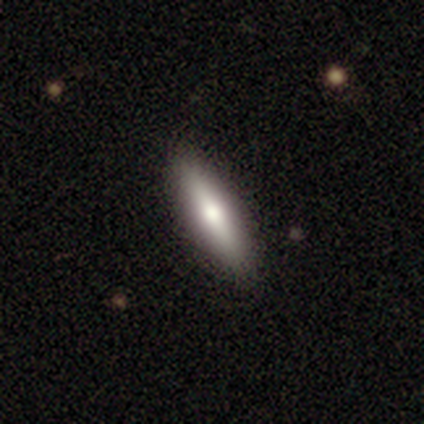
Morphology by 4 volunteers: smooth 50% (tied), featured or disk 50% (tied), star or artifact 0%. Down the decision tree: how rounded — in between (100%); merging — none (100%).